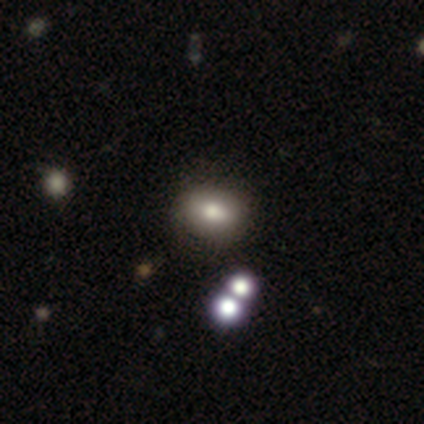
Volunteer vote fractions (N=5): Volunteers were most divided on "merging": none: 50%, minor disturbance: 25%, merger: 25%, major disturbance: 0%. More confident: how rounded — in between (67%); smooth or featured — smooth (60%).